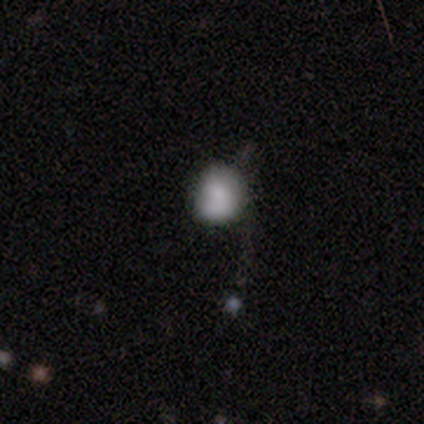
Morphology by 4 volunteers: Smooth or featured? smooth (75%)
How rounded? in between (100%)
Merging? major disturbance (67%)